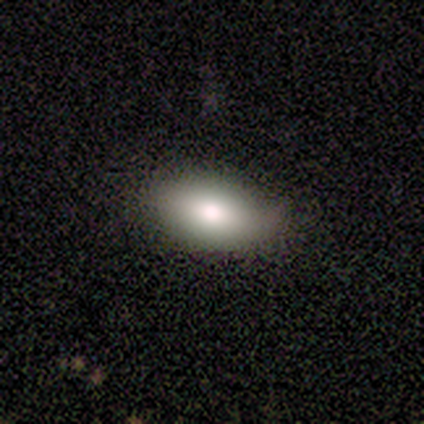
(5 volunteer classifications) Volunteers were most divided on "merging" (2-way tie): none: 40%, minor disturbance: 40%, major disturbance: 20%, merger: 0%. More confident: how rounded — in between (100%); smooth or featured — smooth (80%).